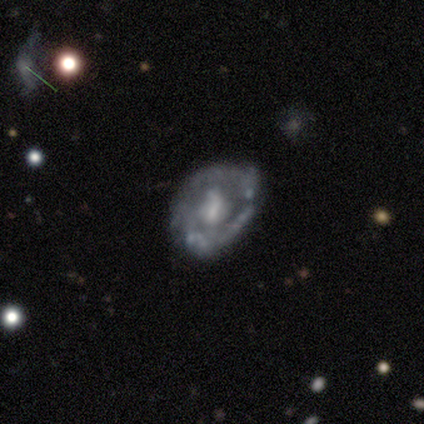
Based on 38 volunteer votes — Q: Smooth or featured?
A: featured or disk (79%); runner-up: smooth (21%)
Q: Edge-on disk?
A: no (97%); runner-up: yes (3%)
Q: Bar?
A: no (48%); runner-up: weak (34%)
Q: Spiral arms?
A: no (69%); runner-up: yes (31%)
Q: Bulge size?
A: moderate (38%); runner-up: small (28%)
Q: Merging?
A: none (29%); runner-up: minor disturbance (26%)